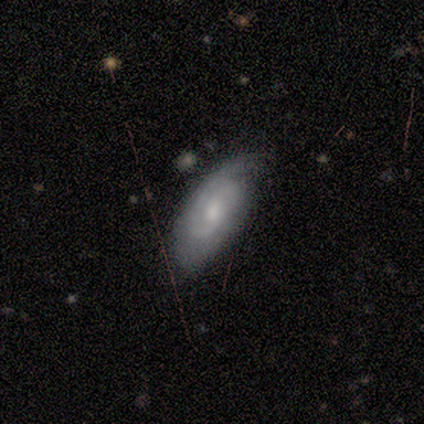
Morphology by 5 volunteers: smooth_or_featured: smooth (p=0.40) [tied with: featured or disk p=0.40]
how_rounded: in between (p=1.00)
merging: none (p=0.75) [alt: minor disturbance p=0.25]